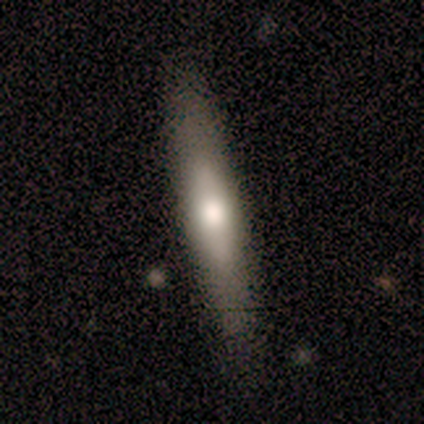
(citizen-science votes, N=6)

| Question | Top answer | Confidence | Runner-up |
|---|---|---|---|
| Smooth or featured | featured or disk | 67% | smooth (33%) |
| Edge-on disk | yes | 75% | no (25%) |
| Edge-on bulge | rounded | 100% | — |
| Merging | none | 100% | — |